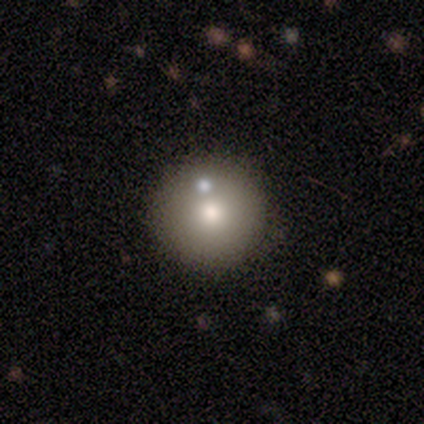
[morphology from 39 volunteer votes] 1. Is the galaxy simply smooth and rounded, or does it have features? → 69% smooth, 21% featured or disk, 10% star or artifact.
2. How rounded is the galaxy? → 96% round, 4% in between, 0% cigar-shaped.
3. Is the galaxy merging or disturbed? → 80% none, 11% minor disturbance, 9% merger, 0% major disturbance.